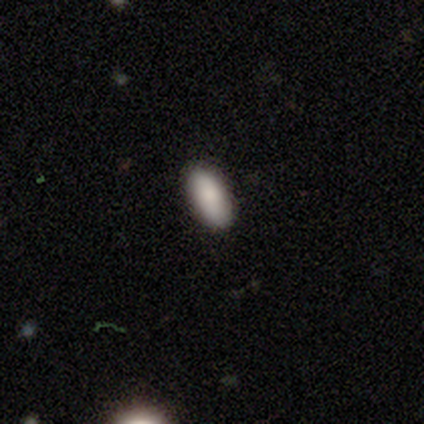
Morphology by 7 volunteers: Smooth or featured? smooth (86%)
How rounded? in between (100%)
Merging? none (100%)